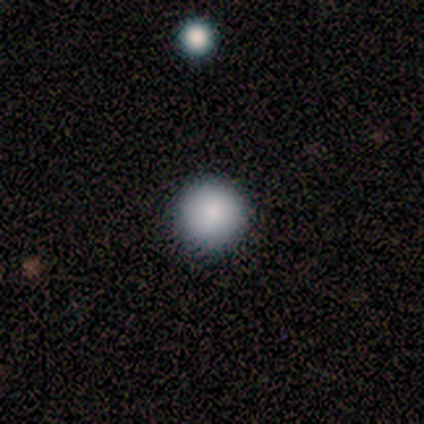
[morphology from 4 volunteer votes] smooth_or_featured: smooth (p=0.75) [alt: featured or disk p=0.25]
how_rounded: round (p=1.00)
merging: none (p=1.00)